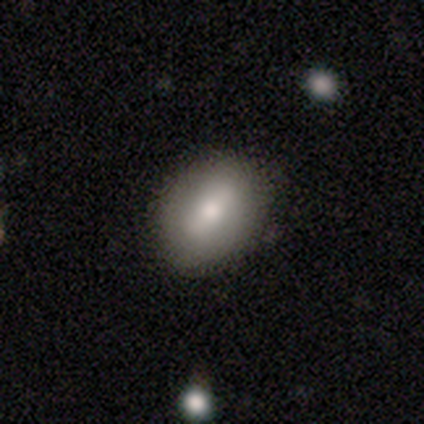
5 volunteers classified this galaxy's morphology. Smooth or featured: smooth — 60% (featured or disk — 40%)
How rounded: in between — 67% (round — 33%)
Merging: none — 80% (minor disturbance — 20%)